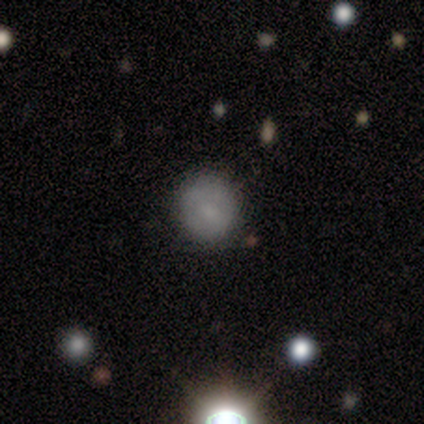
This appears to be a smooth galaxy with no disk features (67%) that is round (75%). Merging: none (100%).